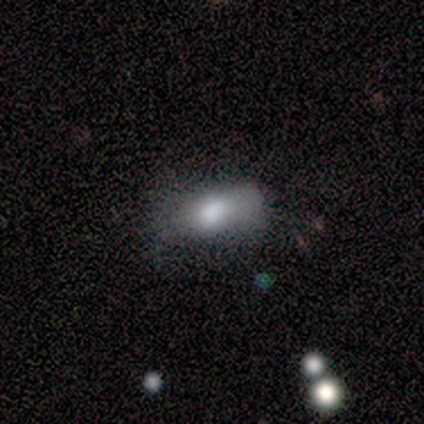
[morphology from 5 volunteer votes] Smooth or featured? 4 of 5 (80%) said smooth. How rounded? 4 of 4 (100%) said in between. Merging? 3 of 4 (75%) said minor disturbance.